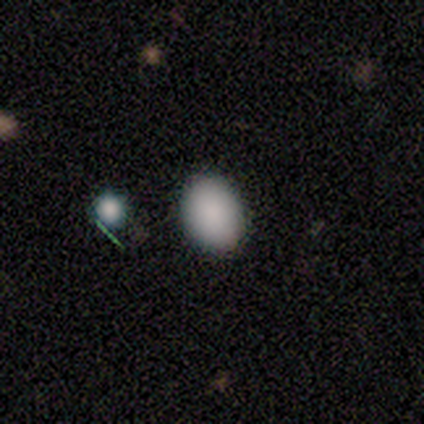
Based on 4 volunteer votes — smooth 75%, featured or disk 25%, star or artifact 0%. Down the decision tree: how rounded — in between (67%); merging — none (75%).